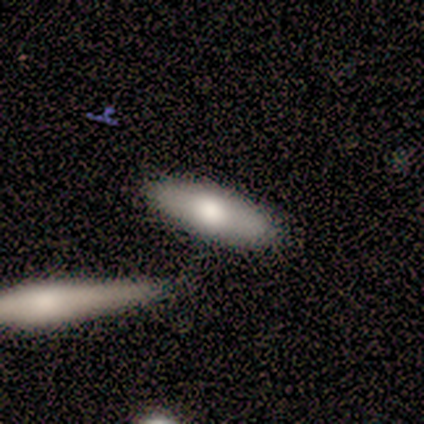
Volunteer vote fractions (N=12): Q: Smooth or featured?
A: smooth (75%); runner-up: featured or disk (25%)
Q: How rounded?
A: in between (56%); runner-up: cigar-shaped (44%)
Q: Merging?
A: none (83%); runner-up: minor disturbance (8%)